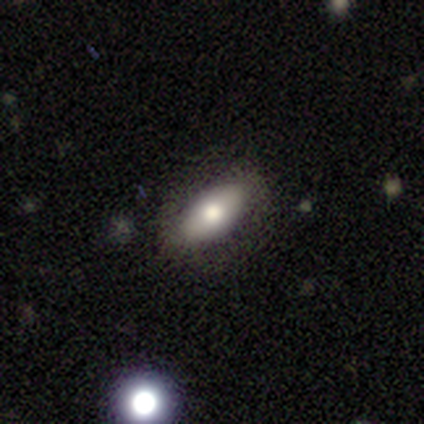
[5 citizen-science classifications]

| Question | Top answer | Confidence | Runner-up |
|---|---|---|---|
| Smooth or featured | smooth | 80% | star or artifact (20%) |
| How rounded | in between | 100% | — |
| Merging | none | 100% | — |